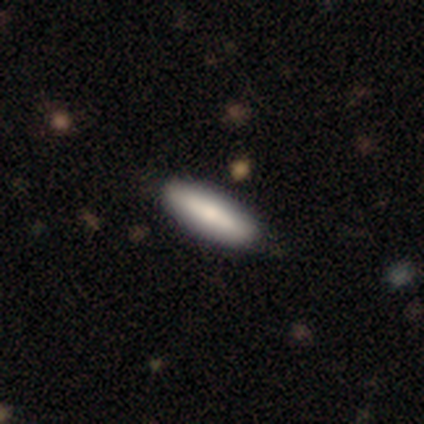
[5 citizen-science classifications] Smooth or featured? 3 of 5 (60%) said smooth. How rounded? 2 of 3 (67%) said in between. Merging? 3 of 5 (60%) said none.